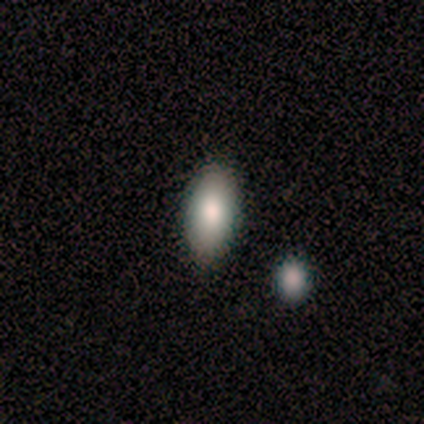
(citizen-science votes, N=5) smooth_or_featured: smooth (p=0.80) [alt: star or artifact p=0.20]
how_rounded: in between (p=1.00)
merging: none (p=1.00)